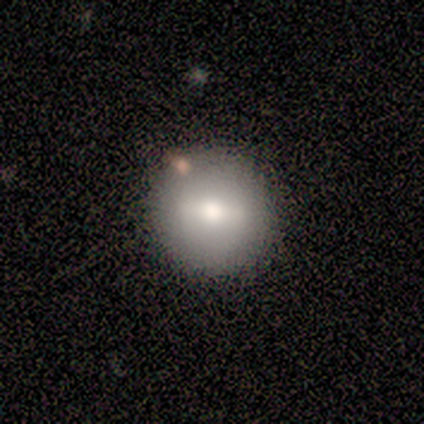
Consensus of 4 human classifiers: smooth 75%, featured or disk 25%, star or artifact 0%. Down the decision tree: how rounded — round (100%); merging — none (100%).